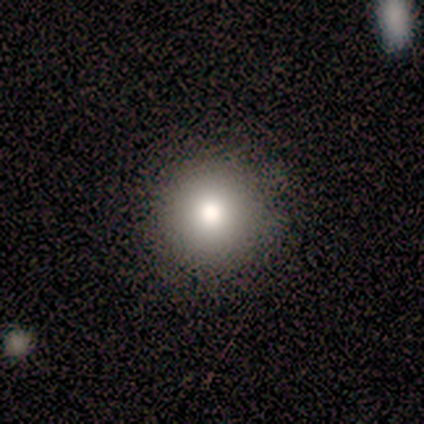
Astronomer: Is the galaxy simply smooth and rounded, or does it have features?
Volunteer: smooth — 94%.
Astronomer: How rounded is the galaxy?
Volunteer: round — 88%.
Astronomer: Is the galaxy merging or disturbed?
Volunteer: none — 81%.